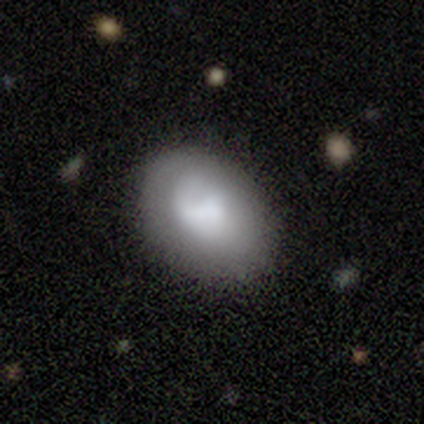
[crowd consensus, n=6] Smooth or featured?
  - smooth: 83% *
  - star or artifact: 17%
  - featured or disk: 0%
How rounded?
  - in between: 100% *
  - round: 0%
  - cigar-shaped: 0%
Merging?
  - none: 80% *
  - minor disturbance: 20%
  - major disturbance: 0%
  - merger: 0%